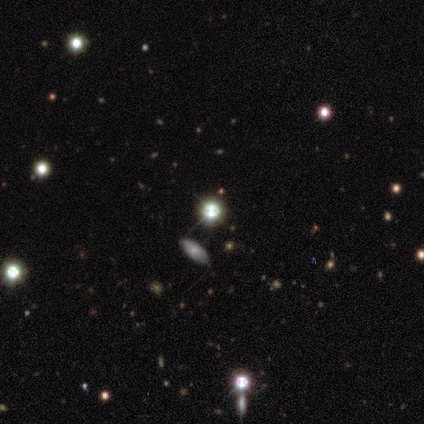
Smooth or featured? 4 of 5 (80%) said star or artifact.